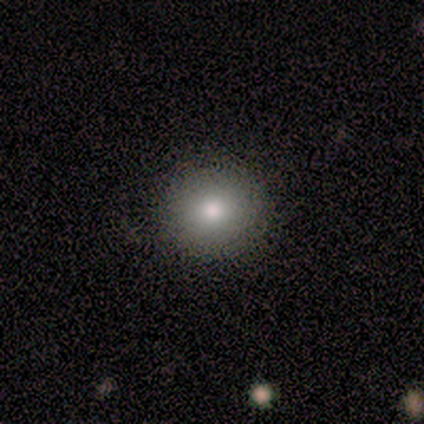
This appears to be a smooth galaxy with no disk features (67%) that is round (100%). Merging: none (100%).